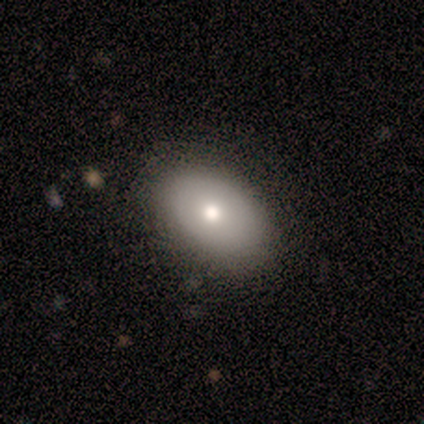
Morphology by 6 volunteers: This appears to be a smooth galaxy with no disk features (83%) that is in between round and cigar-shaped (80%). Merging: none (67%).